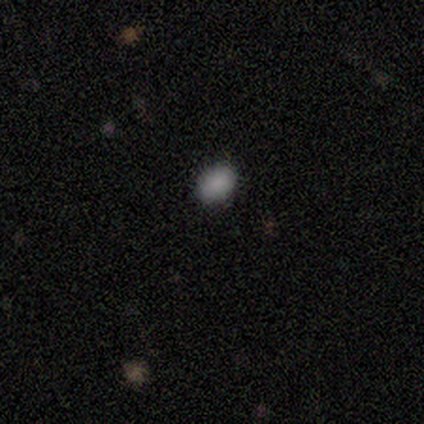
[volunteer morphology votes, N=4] smooth_or_featured: smooth (p=1.00)
how_rounded: in between (p=1.00)
merging: none (p=1.00)